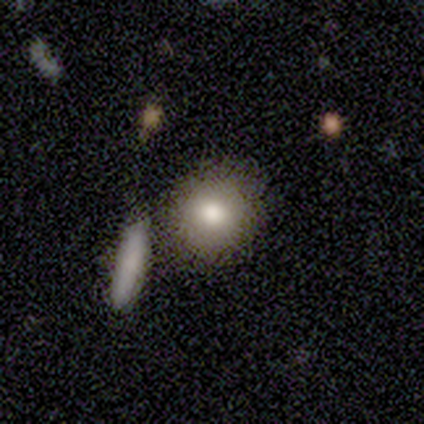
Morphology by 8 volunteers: type=smooth (62%); roundness=round (100%); merging=none (83%).